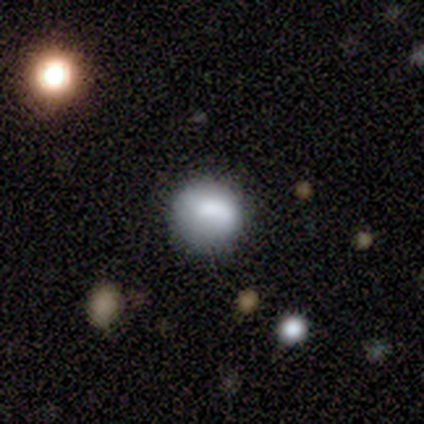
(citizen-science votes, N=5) Smooth or featured? smooth (80%)
How rounded? round (100%)
Merging? none (80%)